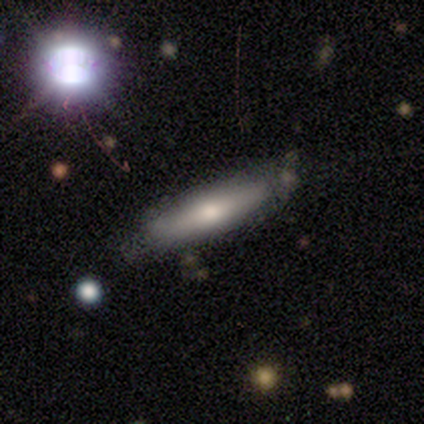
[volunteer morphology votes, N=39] Smooth or featured: smooth — 67% (featured or disk — 31%)
How rounded: cigar-shaped — 85% (in between — 12%)
Merging: none — 45% (merger — 16%)